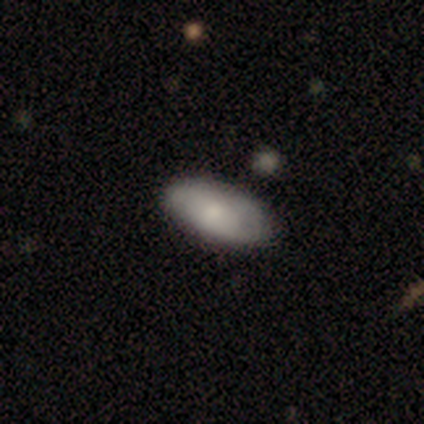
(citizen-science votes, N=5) Morphology: type=smooth (60%); roundness=in between (100%); merging=none (80%).